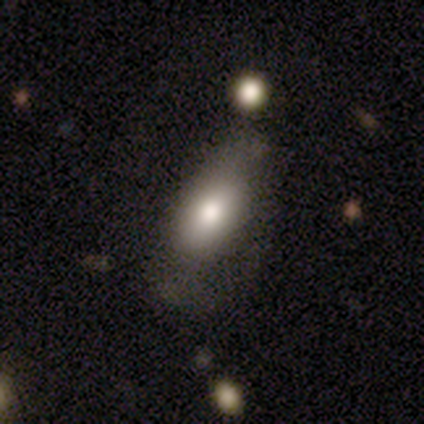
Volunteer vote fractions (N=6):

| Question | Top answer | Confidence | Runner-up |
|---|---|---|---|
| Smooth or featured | smooth | 67% | featured or disk (33%) |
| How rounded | in between | 100% | — |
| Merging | major disturbance | 50% | none (33%) |